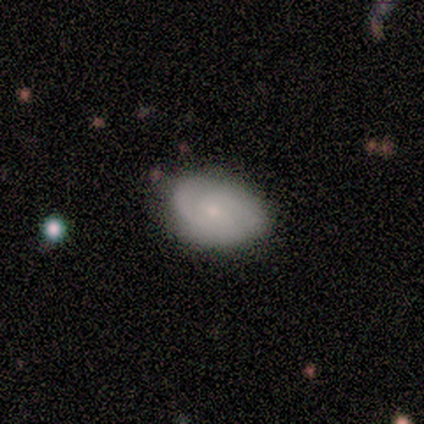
A smooth galaxy with no disk features (60%) that is in between round and cigar-shaped (100%).

Vote fractions:
- Smooth or featured? smooth: 60% / featured or disk: 40% / star or artifact: 0%
- How rounded? in between: 100% / round: 0% / cigar-shaped: 0%
- Merging? none: 60% / minor disturbance: 40% / major disturbance: 0% / merger: 0%